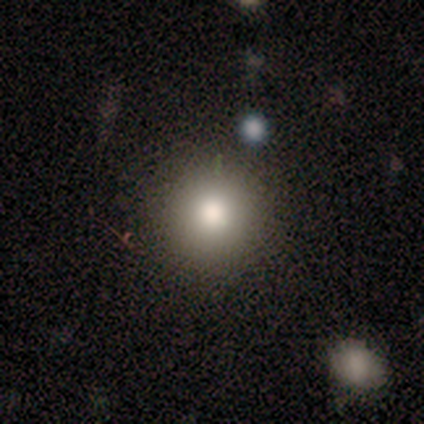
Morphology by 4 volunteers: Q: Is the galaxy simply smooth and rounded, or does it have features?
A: smooth — 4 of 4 (100%).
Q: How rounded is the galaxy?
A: round — 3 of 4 (75%).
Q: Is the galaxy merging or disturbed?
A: none — 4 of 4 (100%).